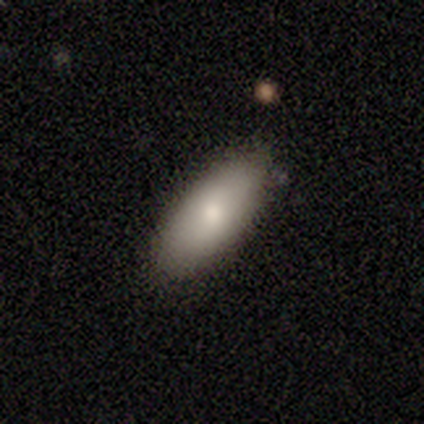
Smooth or featured: smooth — 80% (featured or disk — 20%)
How rounded: in between — 100%
Merging: none — 100%